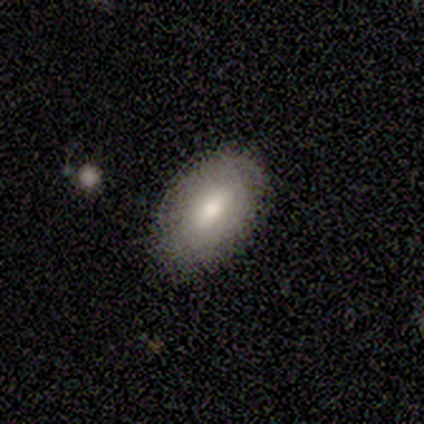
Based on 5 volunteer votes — Smooth or featured: featured or disk — 80% (star or artifact — 20%)
Edge-on disk: no — 100%
Bar: no — 75% (weak — 25%)
Spiral arms: yes — 50% (tied with no — 50%)
Spiral winding: tight — 50% (tied with medium — 50%)
Spiral arm count: 2 — 50% (tied with can't tell — 50%)
Bulge size: small — 75% (large — 25%)
Merging: none — 100%